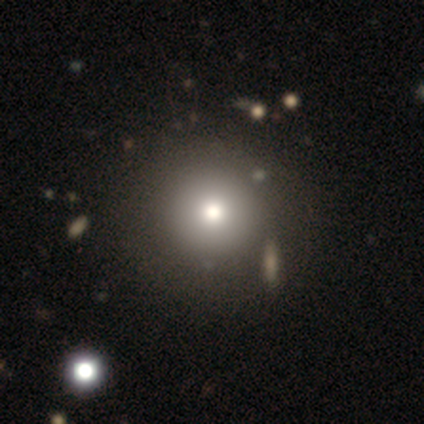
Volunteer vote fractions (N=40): Smooth or featured: smooth — 78% (star or artifact — 12%)
How rounded: round — 100%
Merging: none — 69% (minor disturbance — 6%)